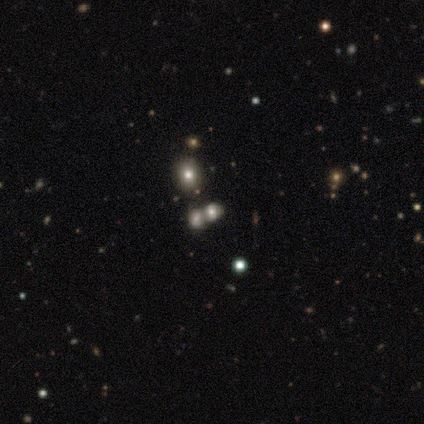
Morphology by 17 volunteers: Smooth or featured? 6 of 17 (35%, tied with star or artifact) said smooth. How rounded? 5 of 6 (83%) said in between. Merging? 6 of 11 (55%) said none.